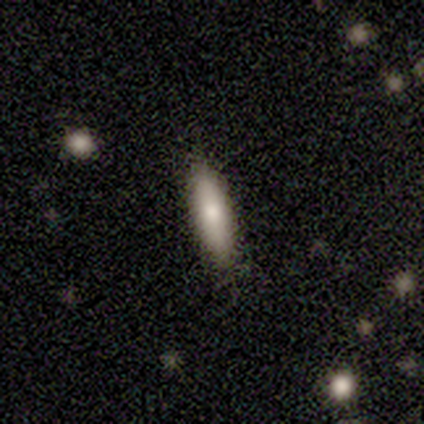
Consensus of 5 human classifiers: Smooth or featured? smooth (60%)
How rounded? cigar-shaped (67%)
Merging? none (80%)